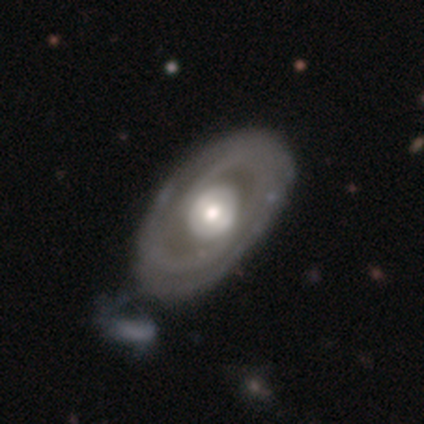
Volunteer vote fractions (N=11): Morphology: type=featured or disk (73%); edge-on=no (100%); bar=no (62%); spiral arms=yes (75%); winding=tight (50%, tied with medium); arm count=2 (67%); bulge=moderate (75%); merging=none (60%).